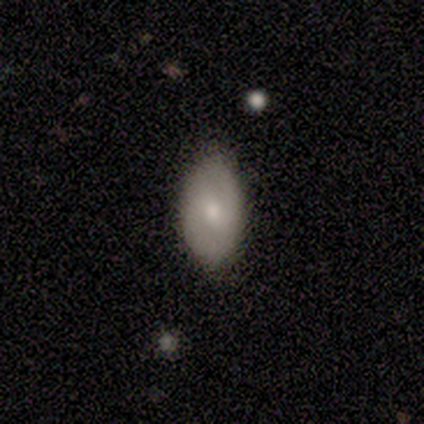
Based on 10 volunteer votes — smooth_or_featured: smooth (p=0.70) [alt: featured or disk p=0.20]
how_rounded: in between (p=0.86) [alt: round p=0.14]
merging: none (p=0.89) [alt: minor disturbance p=0.11]